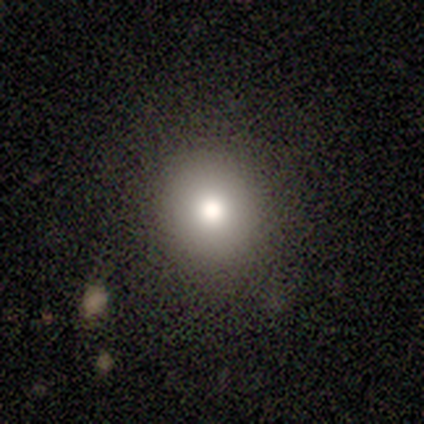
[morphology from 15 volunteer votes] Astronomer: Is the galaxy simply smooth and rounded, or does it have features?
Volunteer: smooth — 80%.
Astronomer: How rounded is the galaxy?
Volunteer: round — 92%.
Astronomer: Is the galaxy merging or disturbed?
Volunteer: none — 92%.